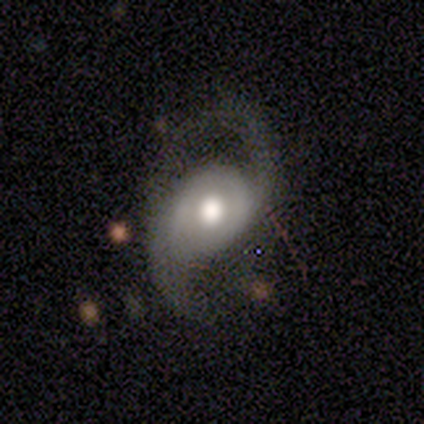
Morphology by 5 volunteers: This appears to be a featured or disk galaxy (100%) with no bar (80%), 2 (100%) loose (60%) spiral arms (100%) and a large central bulge (60%). Merging: none (80%).